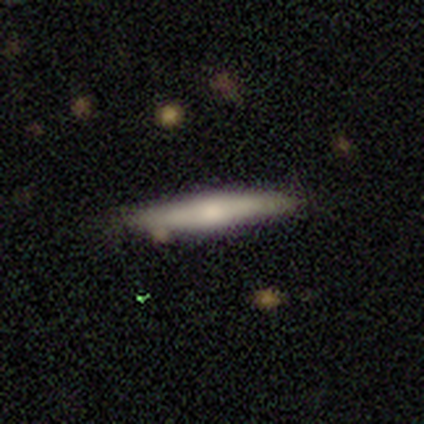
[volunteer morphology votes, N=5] smooth-or-featured: smooth: 60% | featured or disk: 20% | star or artifact: 20%
  how-rounded: cigar-shaped: 67% | round: 33% | in between: 0%
  merging: none: 100% | minor disturbance: 0% | major disturbance: 0% | merger: 0%